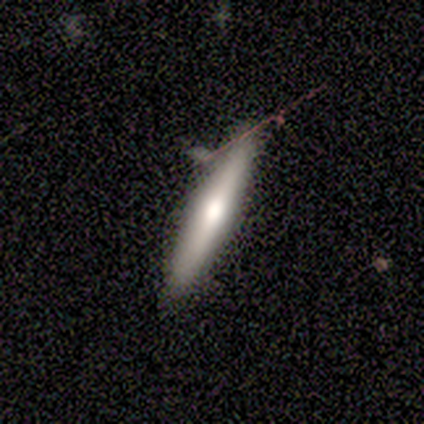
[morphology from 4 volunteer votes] Volunteers were most divided on "smooth or featured": smooth: 75%, featured or disk: 25%, star or artifact: 0%. More confident: how rounded — cigar-shaped (100%); merging — none (100%).